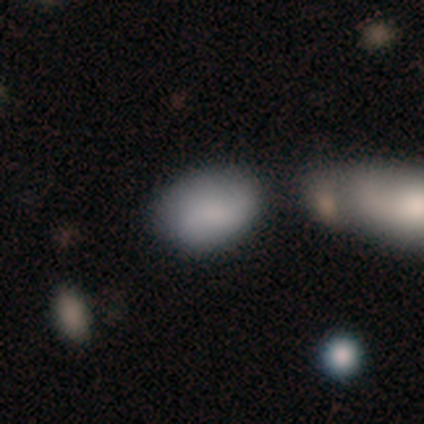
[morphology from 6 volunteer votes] A smooth galaxy with no disk features (83%) that is in between round and cigar-shaped (80%). Merging: none (100%).